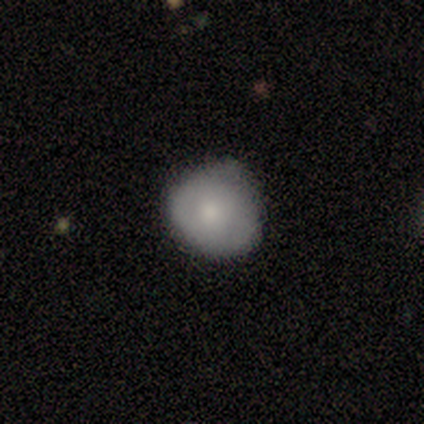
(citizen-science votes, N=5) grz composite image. It shows a smooth galaxy with no disk features (80%) that is round (50%, tied with in between). Merging: none (80%).